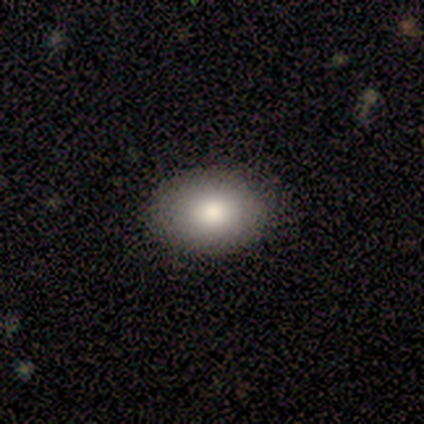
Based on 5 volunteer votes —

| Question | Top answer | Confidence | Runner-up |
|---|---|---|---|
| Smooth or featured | smooth | 100% | — |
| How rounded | in between | 100% | — |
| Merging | none | 80% | minor disturbance (20%) |